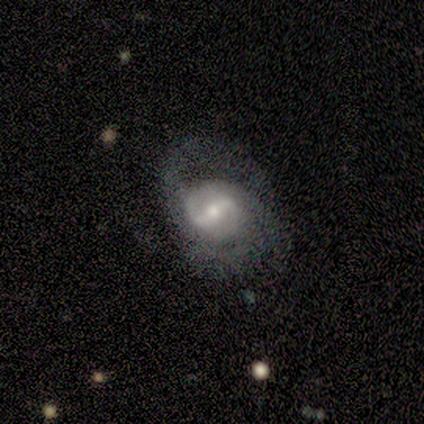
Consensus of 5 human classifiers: Smooth or featured? 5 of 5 (100%) said featured or disk. Edge-on disk? 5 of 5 (100%) said no. Bar? 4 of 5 (80%) said weak. Spiral arms? 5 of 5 (100%) said yes. Spiral winding? 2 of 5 (40%, tied with medium) said tight. Spiral arm count? 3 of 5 (60%) said 2. Bulge size? 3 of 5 (60%) said small. Merging? 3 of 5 (60%) said none.